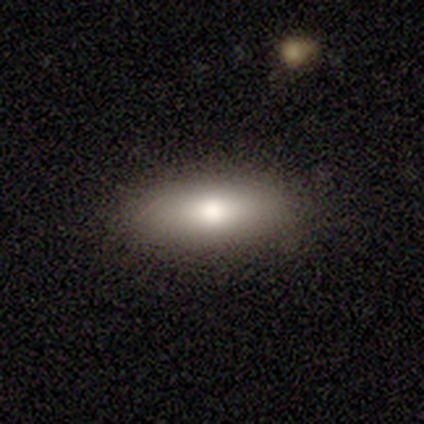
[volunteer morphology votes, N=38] Smooth or featured? 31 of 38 (82%) said smooth. How rounded? 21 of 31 (68%) said in between. Merging? 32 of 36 (89%) said none.